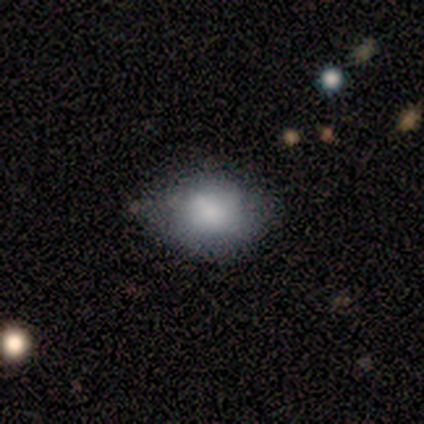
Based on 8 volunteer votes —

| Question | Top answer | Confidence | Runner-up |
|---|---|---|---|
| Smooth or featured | smooth | 88% | star or artifact (12%) |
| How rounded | in between | 57% | round (43%) |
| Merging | none | 86% | minor disturbance (14%) |